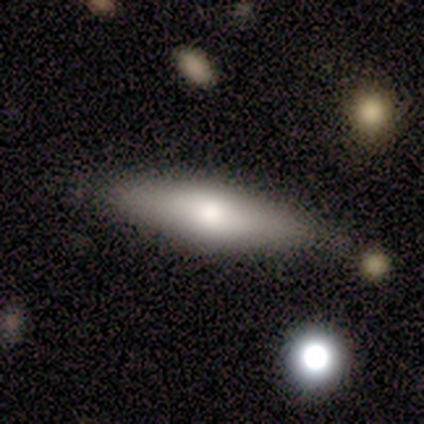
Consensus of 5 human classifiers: Q: Smooth or featured?
A: smooth (100%)
Q: How rounded?
A: cigar-shaped (80%); runner-up: in between (20%)
Q: Merging?
A: none (100%)